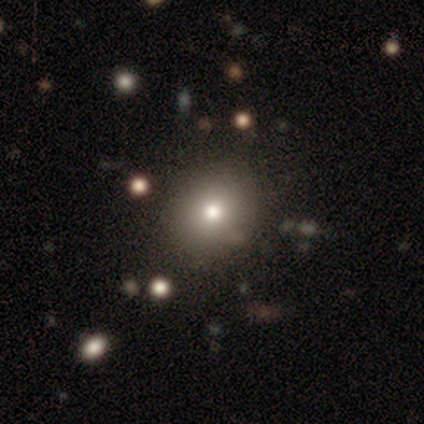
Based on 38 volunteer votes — Smooth or featured?
  - smooth: 71% *
  - star or artifact: 21%
  - featured or disk: 8%
How rounded?
  - round: 67% *
  - in between: 33%
  - cigar-shaped: 0%
Merging?
  - none: 83% *
  - minor disturbance: 7%
  - merger: 7%
  - major disturbance: 3%